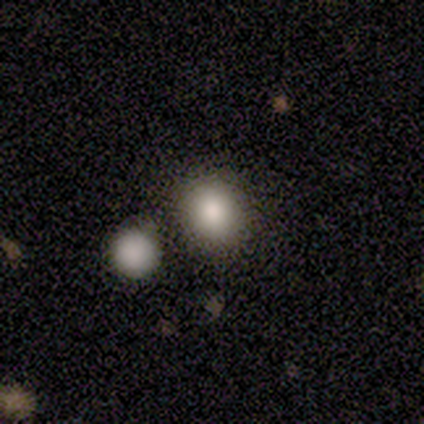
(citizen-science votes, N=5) Morphology: type=smooth (80%); roundness=round (100%); merging=none (40%, tied with minor disturbance).